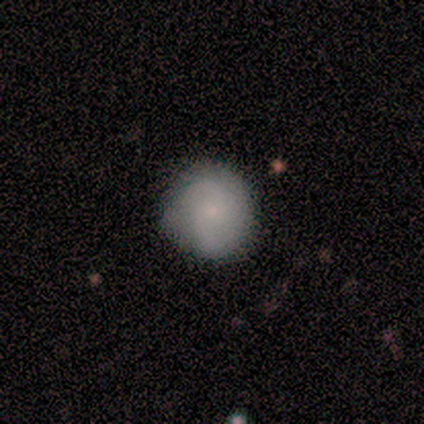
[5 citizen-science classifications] Q: Smooth or featured?
A: smooth (60%); runner-up: featured or disk (40%)
Q: How rounded?
A: round (100%)
Q: Merging?
A: none (60%); runner-up: minor disturbance (40%)